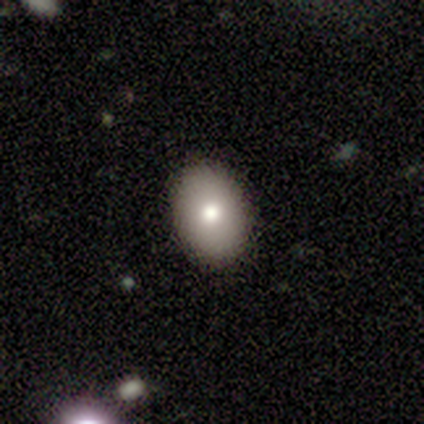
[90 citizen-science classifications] Q: Smooth or featured?
A: smooth (76%); runner-up: featured or disk (17%)
Q: How rounded?
A: in between (78%); runner-up: round (21%)
Q: Merging?
A: none (90%); runner-up: minor disturbance (8%)